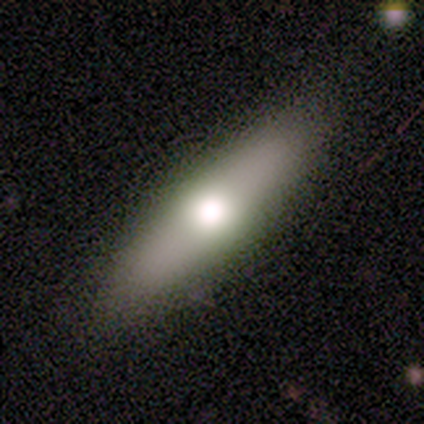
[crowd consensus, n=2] Q: Smooth or featured?
A: smooth (50%); tied with: featured or disk (50%)
Q: How rounded?
A: cigar-shaped (100%)
Q: Merging?
A: none (50%); tied with: major disturbance (50%)